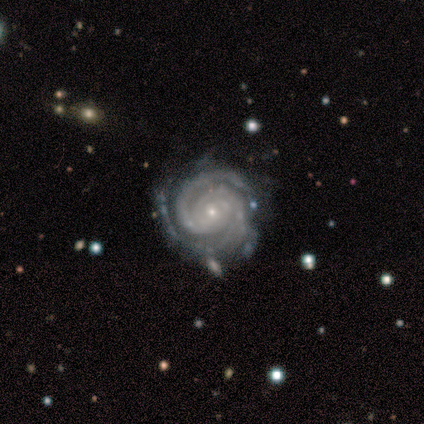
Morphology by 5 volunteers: A featured or disk galaxy (80%) with no bar (75%), 2 (50%) tight (50%, tied with medium) spiral arms (100%) and a small central bulge (100%). Merging: none (75%).